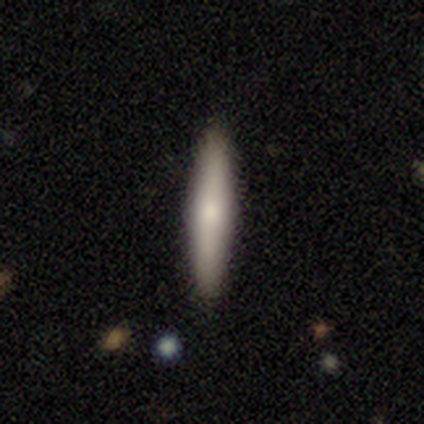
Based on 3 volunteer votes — Volunteers were most divided on "edge-on bulge" (2-way tie): boxy: 50%, rounded: 50%, none: 0%. More confident: edge-on disk — yes (100%); merging — none (100%); smooth or featured — featured or disk (67%).